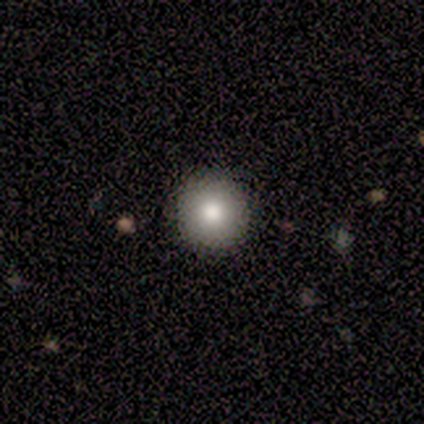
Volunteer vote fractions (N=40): Smooth or featured? smooth (78%)
How rounded? round (97%)
Merging? none (92%)